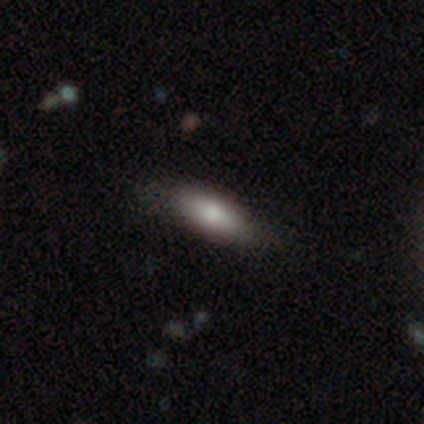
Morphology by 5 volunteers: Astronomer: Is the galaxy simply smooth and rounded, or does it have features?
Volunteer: smooth — 80%.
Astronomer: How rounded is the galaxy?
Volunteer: in between — 100%.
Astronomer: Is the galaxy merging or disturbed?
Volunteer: none — 60% (runner-up: minor disturbance, 40%).